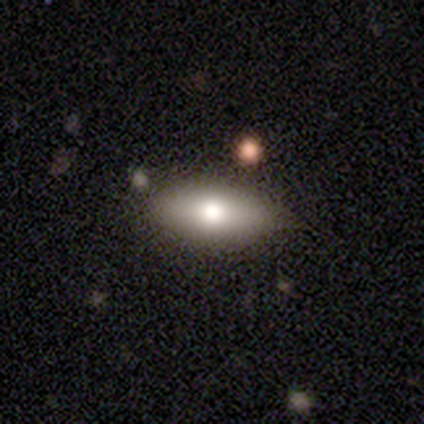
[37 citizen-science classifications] Smooth or featured? 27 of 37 (73%) said smooth. How rounded? 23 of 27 (85%) said in between. Merging? 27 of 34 (79%) said none.